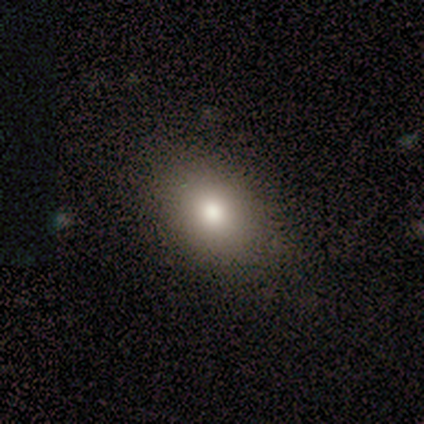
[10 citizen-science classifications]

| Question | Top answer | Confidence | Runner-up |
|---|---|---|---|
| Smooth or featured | smooth | 80% | featured or disk (10%) |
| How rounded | in between | 75% | round (25%) |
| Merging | none | 89% | minor disturbance (11%) |